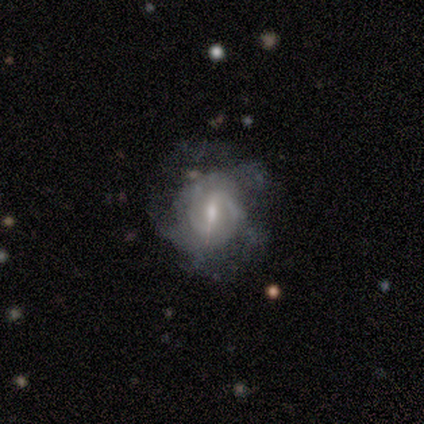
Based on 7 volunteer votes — Volunteers were most divided on "spiral winding": medium: 60%, tight: 40%, loose: 0%. More confident: edge-on disk — no (100%); smooth or featured — featured or disk (86%); bar — weak (83%); spiral arms — yes (83%); merging — none (71%); bulge size — small (67%); spiral arm count — can't tell (60%).